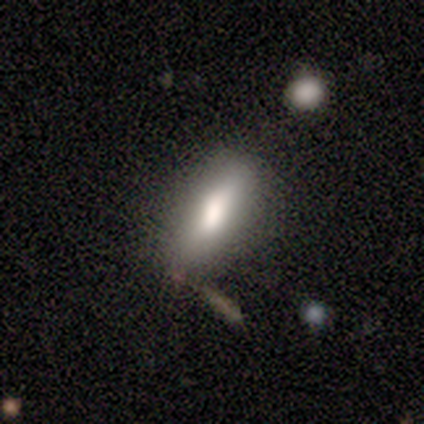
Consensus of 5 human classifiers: This is likely a featured or disk galaxy (60%). It is clearly viewed edge-on (100%). Edge-on bulge: likely boxy (67%). Merging: likely none (75%).